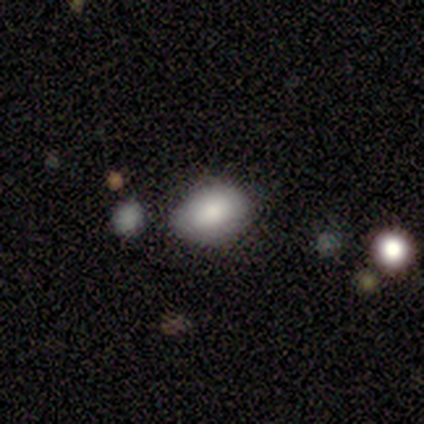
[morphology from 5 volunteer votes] type=smooth (80%); roundness=in between (75%); merging=none (60%).